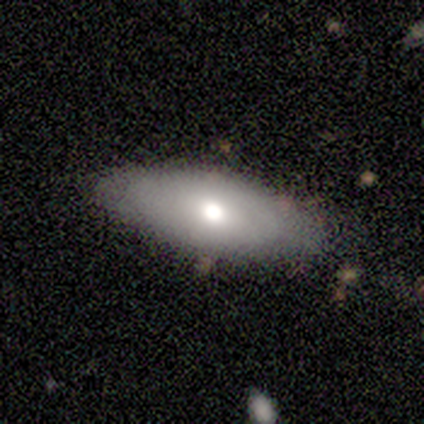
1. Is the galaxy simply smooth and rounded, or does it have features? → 67% smooth, 33% star or artifact, 0% featured or disk.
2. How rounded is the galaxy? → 100% in between, 0% round, 0% cigar-shaped.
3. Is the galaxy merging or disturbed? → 100% none, 0% minor disturbance, 0% major disturbance, 0% merger.